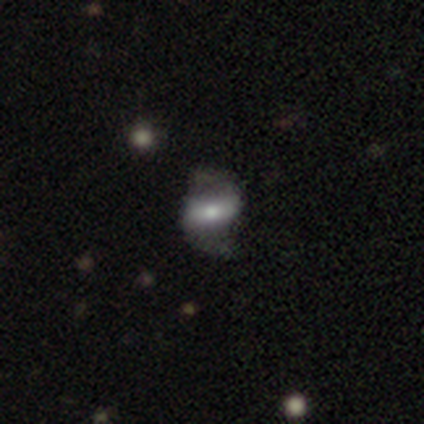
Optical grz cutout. It shows a featured or disk galaxy (60%) with a strong bar (67%), 2 (100%) medium (67%) spiral arms (100%) and a large central bulge (33%, tied with moderate and small). Merging: none (50%).